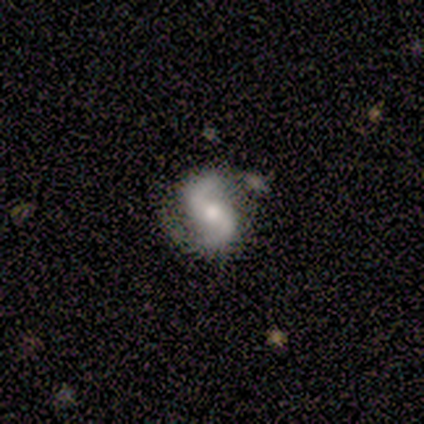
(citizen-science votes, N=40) Smooth or featured? featured or disk (80%)
Edge-on disk? no (100%)
Bar? weak (44%)
Spiral arms? yes (97%)
Spiral winding? loose (52%)
Spiral arm count? 2 (90%)
Bulge size? moderate (75%)
Merging? none (69%)